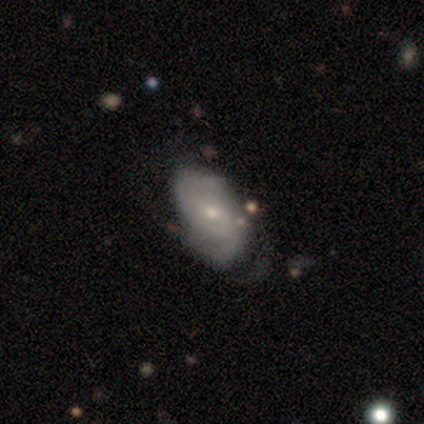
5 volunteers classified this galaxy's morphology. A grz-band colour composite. It shows a featured or disk galaxy (60%) with no bar (100%), 2 (67%) medium (100%) spiral arms (100%) and a small central bulge (67%). Merging: none (60%).